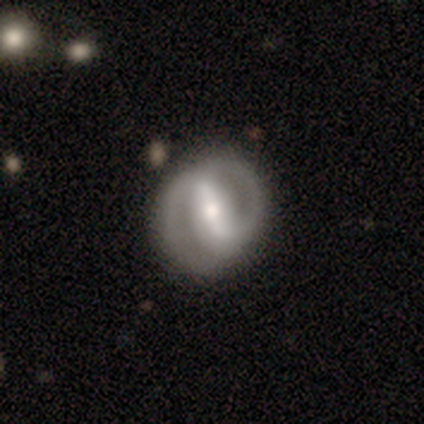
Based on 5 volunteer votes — A featured or disk galaxy (60%) with a strong bar (50%, tied with weak), medium (100%) spiral arms (50%, tied with no) and a moderate central bulge (100%).

Vote fractions:
- Smooth or featured? featured or disk: 60% / smooth: 20% / star or artifact: 20%
- Edge-on disk? no: 67% / yes: 33%
- Bar? strong: 50% (tied) / weak: 50% (tied) / no: 0%
- Spiral arms? yes: 50% (tied) / no: 50% (tied)
- Spiral winding? medium: 100% / tight: 0% / loose: 0%
- Spiral arm count? can't tell: 100% / 1: 0% / 2: 0% / 3: 0% / 4: 0% / more than 4: 0%
- Bulge size? moderate: 100% / dominant: 0% / large: 0% / small: 0% / none: 0%
- Merging? none: 75% / minor disturbance: 25% / major disturbance: 0% / merger: 0%